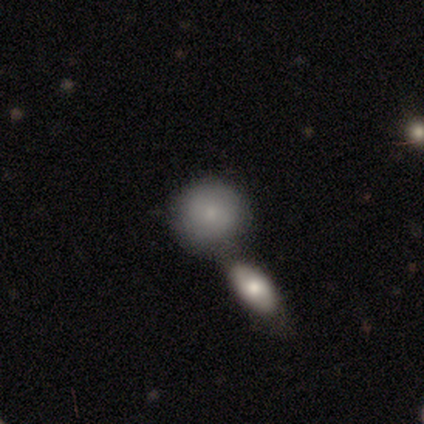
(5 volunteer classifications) Morphology: type=smooth (80%); roundness=round (100%); merging=none (40%, tied with merger).